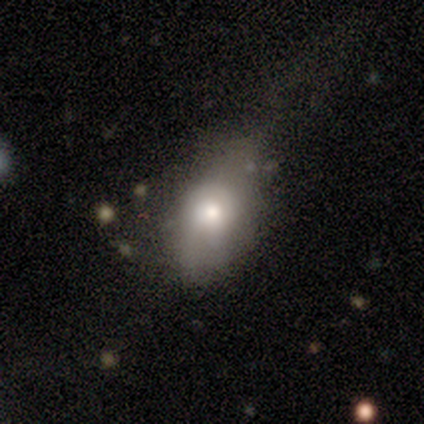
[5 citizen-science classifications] Smooth or featured? 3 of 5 (60%) said smooth. How rounded? 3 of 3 (100%) said in between. Merging? 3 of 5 (60%) said minor disturbance.